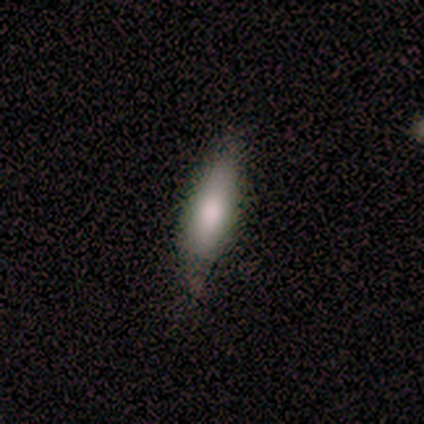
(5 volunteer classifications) smooth-or-featured: smooth: 80% | featured or disk: 20% | star or artifact: 0%
  how-rounded: in between: 75% | cigar-shaped: 25% | round: 0%
  merging: none: 100% | minor disturbance: 0% | major disturbance: 0% | merger: 0%